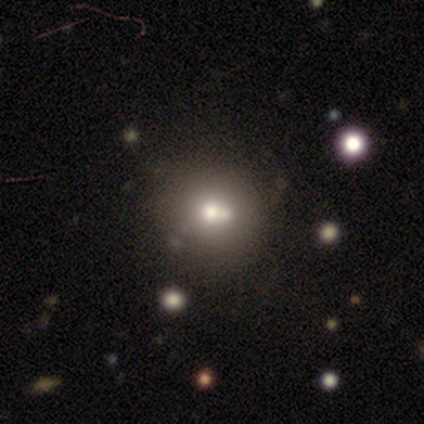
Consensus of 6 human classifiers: smooth_or_featured: smooth (p=0.67) [alt: featured or disk p=0.17]
how_rounded: round (p=1.00)
merging: none (p=0.60) [alt: minor disturbance p=0.20]